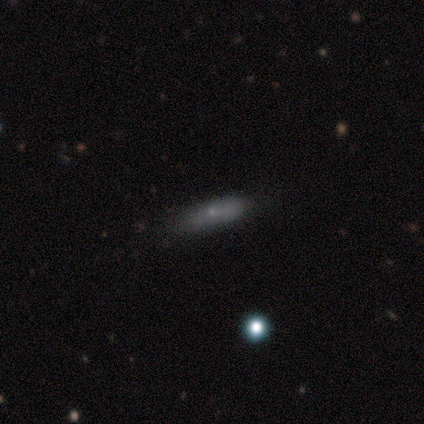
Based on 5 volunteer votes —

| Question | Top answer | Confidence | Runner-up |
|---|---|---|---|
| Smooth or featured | smooth | 80% | featured or disk (20%) |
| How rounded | in between | 50% | tied: cigar-shaped (50%) |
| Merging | none | 100% | — |